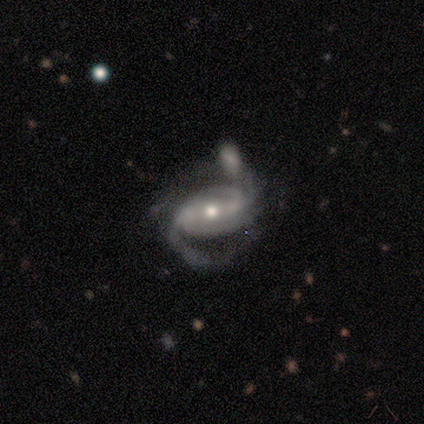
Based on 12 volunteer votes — Smooth or featured?
  - featured or disk: 100% *
  - smooth: 0%
  - star or artifact: 0%
Edge-on disk?
  - no: 100% *
  - yes: 0%
Bar?
  - weak: 50% *
  - strong: 42%
  - no: 8%
Spiral arms?
  - yes: 100% *
  - no: 0%
Spiral winding?
  - medium: 67% *
  - tight: 25%
  - loose: 8%
Spiral arm count?
  - 2: 83% *
  - 1: 8%
  - 3: 8%
  - 4: 0%
  - more than 4: 0%
  - can't tell: 0%
Bulge size?
  - moderate: 67% *
  - small: 33%
  - dominant: 0%
  - large: 0%
  - none: 0%
Merging?
  - merger: 33% *
  - none: 25%
  - major disturbance: 25%
  - minor disturbance: 17%